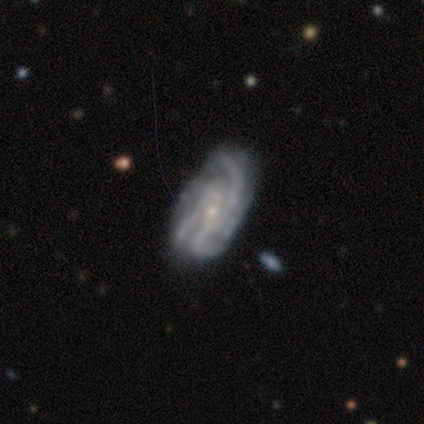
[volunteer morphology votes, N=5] smooth-or-featured: featured or disk: 100% | smooth: 0% | star or artifact: 0%
  disk-edge-on: no: 80% | yes: 20%
    bar: weak: 75% | no: 25% | strong: 0%
    has-spiral-arms: yes: 100% | no: 0%
      spiral-winding: medium: 75% | tight: 25% | loose: 0%
      spiral-arm-count: 3: 100% | 1: 0% | 2: 0% | 4: 0% | more than 4: 0% | can't tell: 0%
    bulge-size: small: 100% | dominant: 0% | large: 0% | moderate: 0% | none: 0%
  merging: none: 80% | minor disturbance: 20% | major disturbance: 0% | merger: 0%